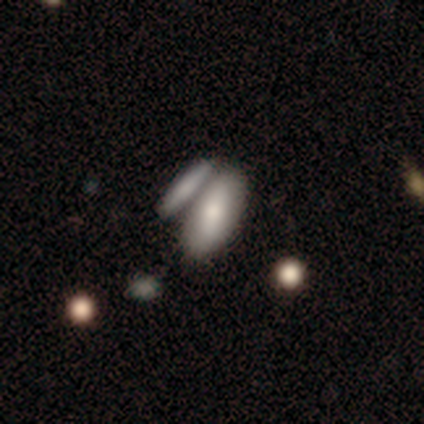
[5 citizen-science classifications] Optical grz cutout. It shows a smooth galaxy with no disk features (80%) that is in between round and cigar-shaped (100%). Merging: merger (60%).